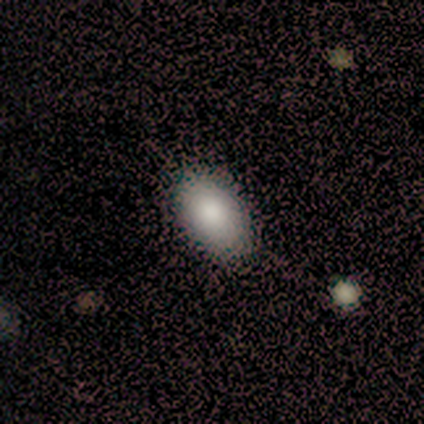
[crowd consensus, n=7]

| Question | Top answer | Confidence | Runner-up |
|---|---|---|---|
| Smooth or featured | smooth | 100% | — |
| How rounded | in between | 100% | — |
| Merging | none | 71% | minor disturbance (29%) |